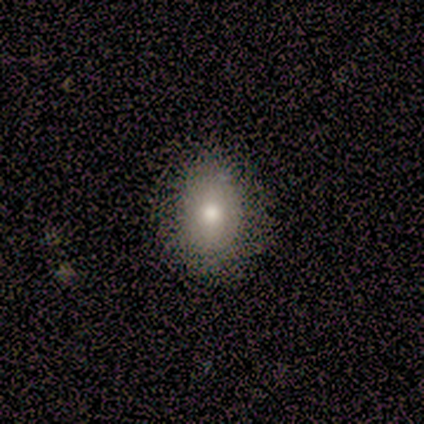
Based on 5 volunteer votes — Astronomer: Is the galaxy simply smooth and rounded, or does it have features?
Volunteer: smooth — 100%.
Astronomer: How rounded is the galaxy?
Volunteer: in between — 60% (runner-up: round, 40%).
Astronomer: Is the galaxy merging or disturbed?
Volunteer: none — 100%.